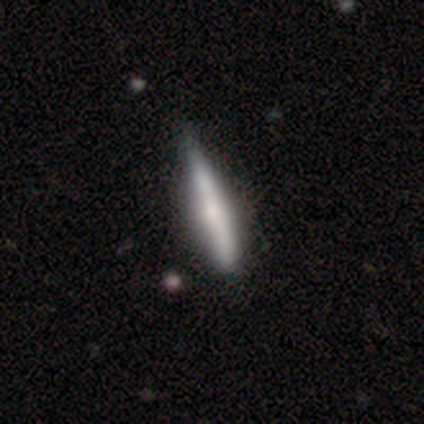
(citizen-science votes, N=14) smooth 57%, featured or disk 36%, star or artifact 7%. Down the decision tree: how rounded — cigar-shaped (88%); merging — none (69%).